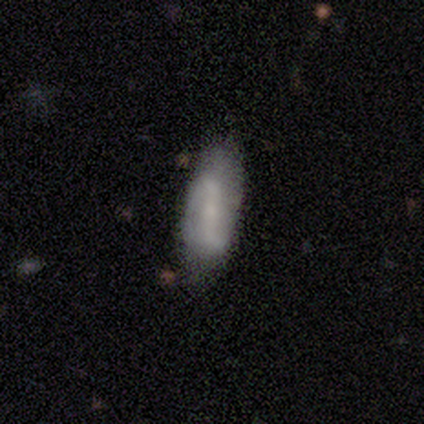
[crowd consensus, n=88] A featured or disk galaxy (59%) with a strong bar (51%), 2 (84%) loose (62%) spiral arms (68%) and a small central bulge (57%).

Vote fractions:
- Smooth or featured? featured or disk: 59% / smooth: 39% / star or artifact: 2%
- Edge-on disk? no: 90% / yes: 10%
- Bar? strong: 51% / no: 26% / weak: 23%
- Spiral arms? yes: 68% / no: 32%
- Spiral winding? loose: 62% / tight: 19% / medium: 19%
- Spiral arm count? 2: 84% / can't tell: 16% / 1: 0% / 3: 0% / 4: 0% / more than 4: 0%
- Bulge size? small: 57% / none: 23% / moderate: 17% / large: 2% / dominant: 0%
- Merging? none: 64% / minor disturbance: 29% / major disturbance: 3% / merger: 3%